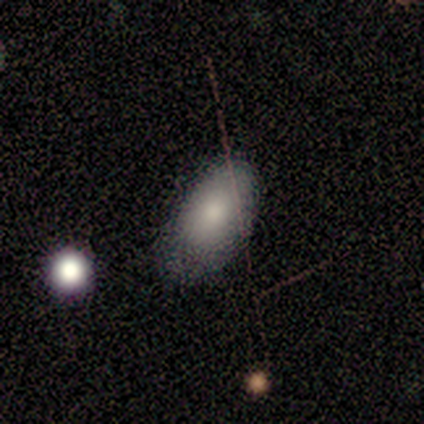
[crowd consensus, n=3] This appears to be a smooth galaxy with no disk features (100%) that is in between round and cigar-shaped (100%). Merging: none (67%).